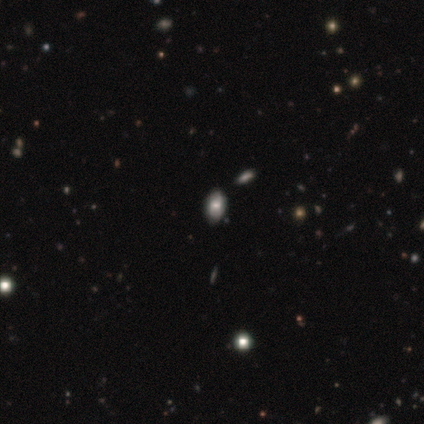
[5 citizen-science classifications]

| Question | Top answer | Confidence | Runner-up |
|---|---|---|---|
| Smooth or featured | smooth | 80% | featured or disk (20%) |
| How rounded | in between | 100% | — |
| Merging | none | 100% | — |